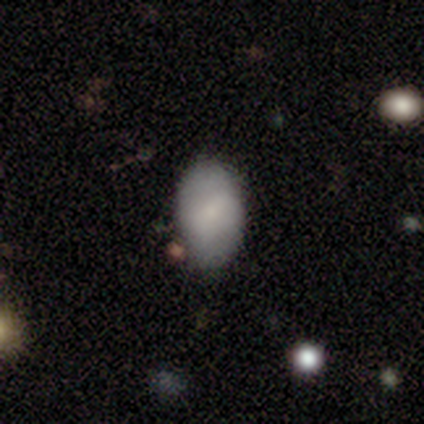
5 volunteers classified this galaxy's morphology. smooth-or-featured: featured or disk: 60% | smooth: 40% | star or artifact: 0%
  disk-edge-on: no: 100% | yes: 0%
    bar: strong: 33% (tied) | weak: 33% (tied) | no: 33% (tied)
    has-spiral-arms: yes: 67% | no: 33%
      spiral-winding: medium: 50% (tied) | loose: 50% (tied) | tight: 0%
      spiral-arm-count: 2: 100% | 1: 0% | 3: 0% | 4: 0% | more than 4: 0% | can't tell: 0%
    bulge-size: small: 100% | dominant: 0% | large: 0% | moderate: 0% | none: 0%
  merging: none: 100% | minor disturbance: 0% | major disturbance: 0% | merger: 0%